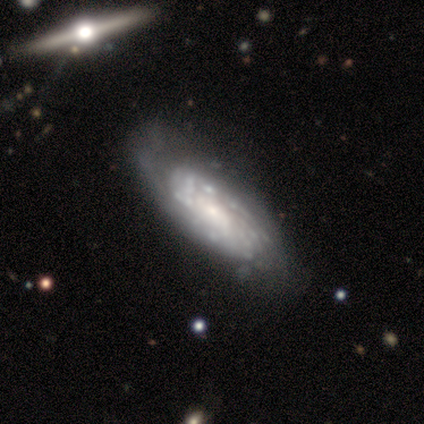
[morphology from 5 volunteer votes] A featured or disk galaxy (60%) with a strong bar (50%, tied with no), tight (100%) spiral arms (100%) and a small central bulge (100%). Merging: none (75%).